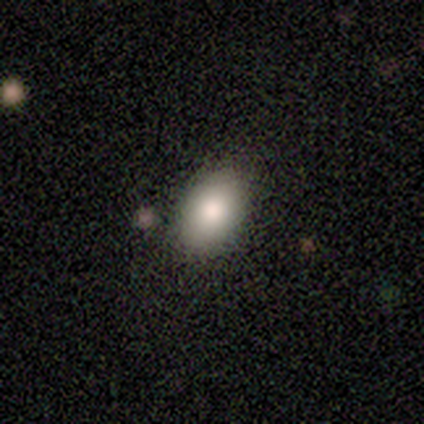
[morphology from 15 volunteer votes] This is likely a smooth galaxy (73%). How rounded: clearly in between (91%). Merging: clearly none (86%).